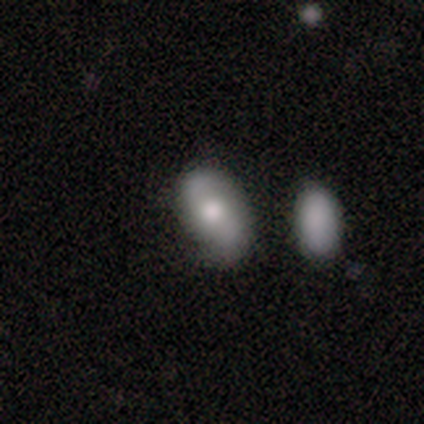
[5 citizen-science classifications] smooth_or_featured: featured or disk (p=0.60) [alt: smooth p=0.20]
disk_edge_on: no (p=1.00)
bar: no (p=1.00)
has_spiral_arms: yes (p=0.67) [alt: no p=0.33]
spiral_winding: loose (p=1.00)
spiral_arm_count: 2 (p=1.00)
bulge_size: small (p=0.67) [alt: moderate p=0.33]
merging: none (p=0.75) [alt: minor disturbance p=0.25]